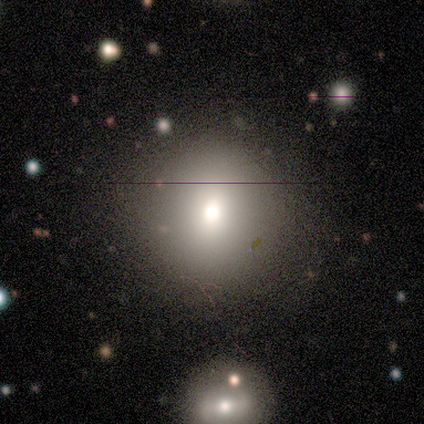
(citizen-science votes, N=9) Morphology: type=smooth (78%); roundness=round (100%); merging=none (100%).